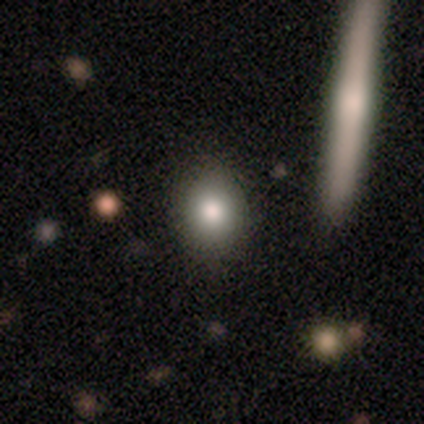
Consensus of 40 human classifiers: Q: Smooth or featured?
A: smooth (75%); runner-up: featured or disk (18%)
Q: How rounded?
A: round (60%); runner-up: in between (33%)
Q: Merging?
A: none (89%); runner-up: minor disturbance (8%)